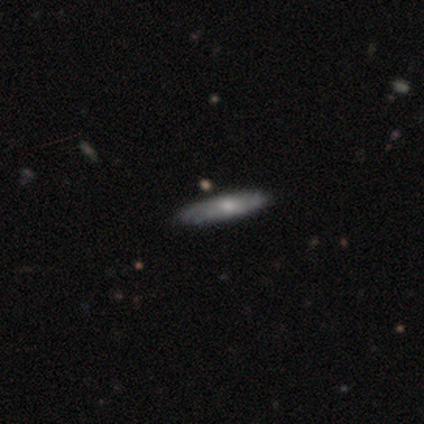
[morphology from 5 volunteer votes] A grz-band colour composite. It shows a featured or disk galaxy (80%) viewed edge-on (75%) with a rounded central bulge (100%). Merging: none (80%).